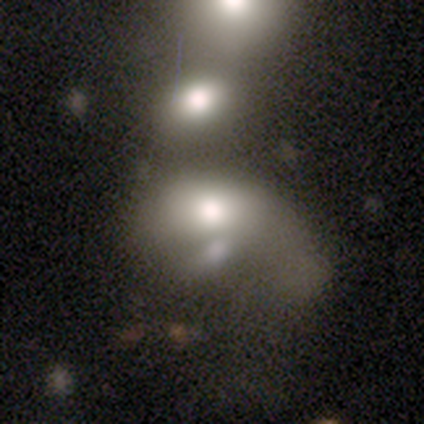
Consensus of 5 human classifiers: Smooth or featured: smooth — 80% (featured or disk — 20%)
How rounded: in between — 75% (round — 25%)
Merging: major disturbance — 40% (tied with merger — 40%)